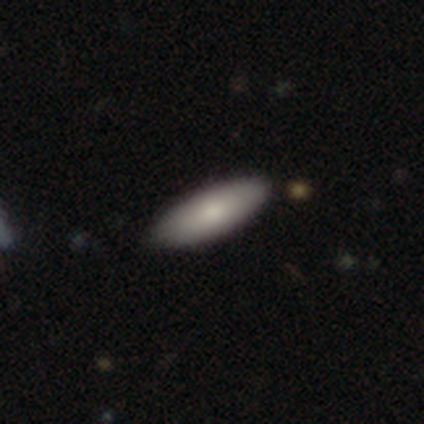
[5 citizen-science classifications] A smooth galaxy with no disk features (60%) that is in between round and cigar-shaped (67%).

Vote fractions:
- Smooth or featured? smooth: 60% / featured or disk: 40% / star or artifact: 0%
- How rounded? in between: 67% / cigar-shaped: 33% / round: 0%
- Merging? none: 100% / minor disturbance: 0% / major disturbance: 0% / merger: 0%